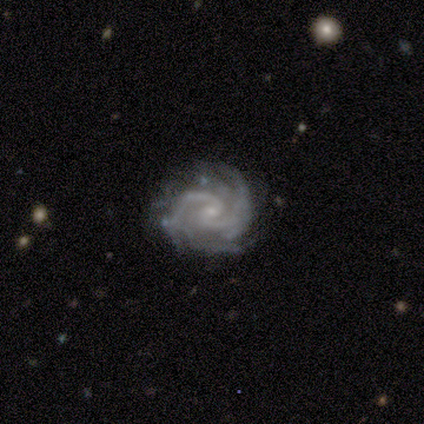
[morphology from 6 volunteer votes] type=featured or disk (100%); edge-on=no (100%); bar=weak (50%, tied with no); spiral arms=yes (100%); winding=tight (67%); arm count=2 (67%); bulge=small (100%); merging=none (50%, tied with minor disturbance).